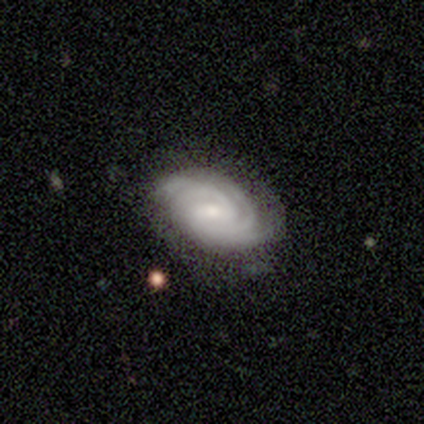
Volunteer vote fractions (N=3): Smooth or featured?
  - featured or disk: 100% *
  - smooth: 0%
  - star or artifact: 0%
Edge-on disk?
  - no: 100% *
  - yes: 0%
Bar?
  - strong: 67% *
  - no: 33%
  - weak: 0%
Spiral arms?
  - yes: 100% *
  - no: 0%
Spiral winding?
  - tight: 100% *
  - medium: 0%
  - loose: 0%
Spiral arm count?
  - 3: 67% *
  - 4: 33%
  - 1: 0%
  - 2: 0%
  - more than 4: 0%
  - can't tell: 0%
Bulge size?
  - large: 33% * (tied)
  - moderate: 33% * (tied)
  - small: 33% * (tied)
  - dominant: 0%
  - none: 0%
Merging?
  - none: 67% *
  - merger: 33%
  - minor disturbance: 0%
  - major disturbance: 0%